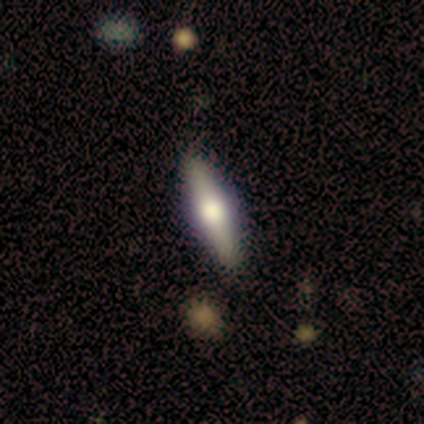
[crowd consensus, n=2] smooth_or_featured: smooth (p=0.50) [tied with: featured or disk p=0.50]
how_rounded: cigar-shaped (p=1.00)
merging: none (p=1.00)